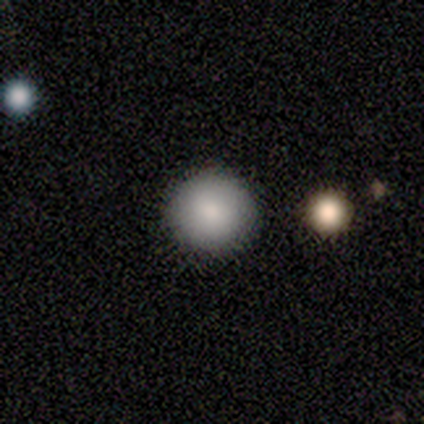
smooth_or_featured: smooth (p=1.00)
how_rounded: round (p=1.00)
merging: none (p=0.80) [alt: minor disturbance p=0.20]